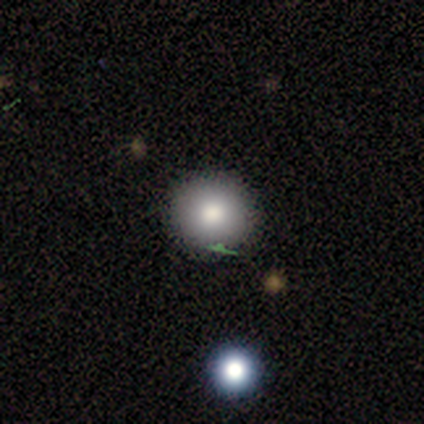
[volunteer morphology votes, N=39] This is clearly a smooth galaxy (82%). How rounded: clearly round (100%). Merging: clearly none (80%).